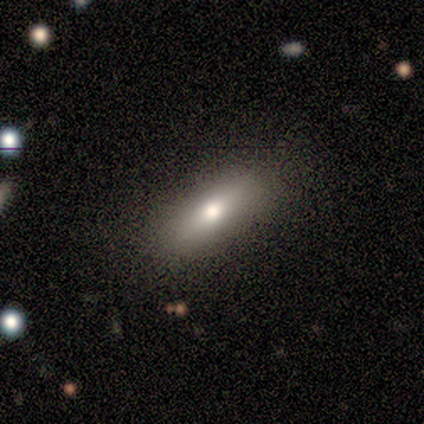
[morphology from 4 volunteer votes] This appears to be a smooth galaxy with no disk features (75%) that is round (33%, tied with in between and cigar-shaped). Merging: none (75%).